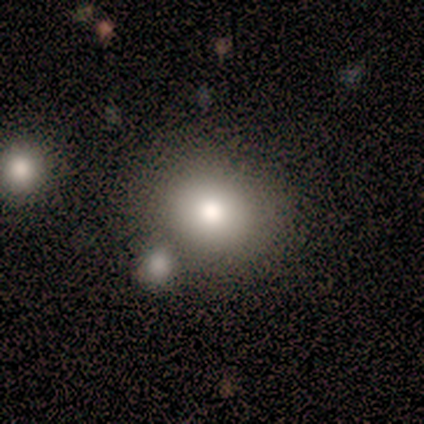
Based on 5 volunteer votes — smooth_or_featured: smooth (p=1.00)
how_rounded: round (p=0.80) [alt: in between p=0.20]
merging: merger (p=0.40) [alt: none p=0.20]